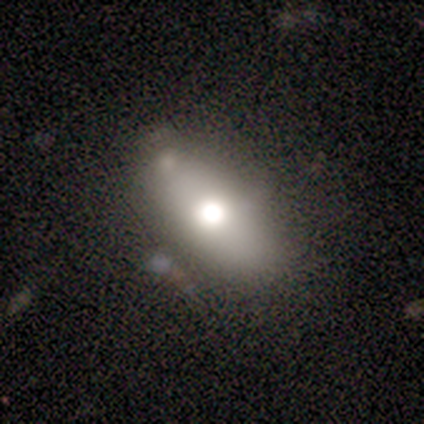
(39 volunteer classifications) Smooth or featured?
  - smooth: 56% *
  - featured or disk: 23%
  - star or artifact: 21%
How rounded?
  - in between: 77% *
  - cigar-shaped: 14%
  - round: 9%
Merging?
  - none: 68% *
  - minor disturbance: 19%
  - major disturbance: 10%
  - merger: 3%